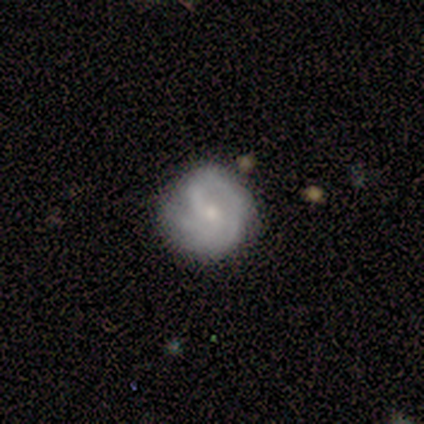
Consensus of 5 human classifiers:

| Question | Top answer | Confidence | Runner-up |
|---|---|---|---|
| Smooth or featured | featured or disk | 80% | smooth (20%) |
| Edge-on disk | no | 100% | — |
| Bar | weak | 75% | no (25%) |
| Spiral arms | yes | 100% | — |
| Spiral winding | tight | 75% | medium (25%) |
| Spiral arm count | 1 | 25% | tied: 2 (25%), 3 (25%), can't tell (25%) |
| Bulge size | small | 75% | moderate (25%) |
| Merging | none | 60% | minor disturbance (20%) |